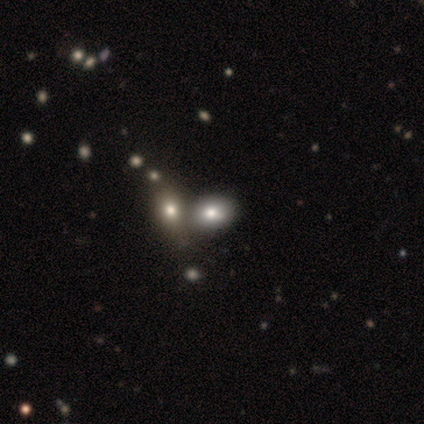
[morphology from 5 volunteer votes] smooth_or_featured: smooth (p=1.00)
how_rounded: round (p=0.60) [alt: in between p=0.40]
merging: none (p=0.80) [alt: merger p=0.20]